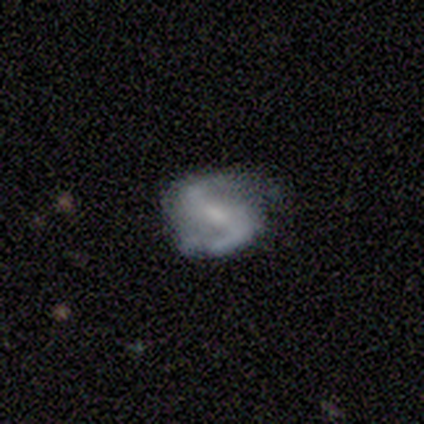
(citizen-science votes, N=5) Overall: featured or disk (80%). Edge-on disk: no (100%). Bar: strong (75%). Spiral arms: yes (100%). Spiral arm count: 2 (100%). Spiral winding: medium (50%, tied with loose). Bulge size: moderate (50%; small 25%). Merging: none (80%).